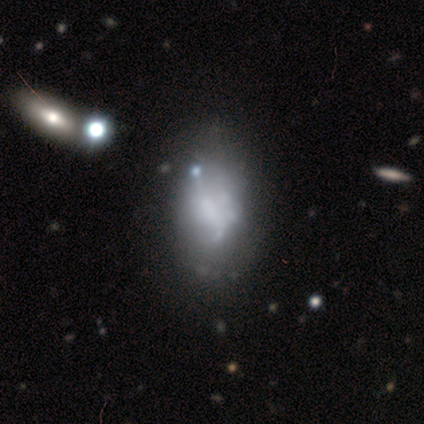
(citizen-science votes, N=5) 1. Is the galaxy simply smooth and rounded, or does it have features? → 40% featured or disk (tied), 40% star or artifact (tied), 20% smooth.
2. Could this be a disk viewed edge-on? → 100% no, 0% yes.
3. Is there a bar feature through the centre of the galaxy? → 100% no, 0% strong, 0% weak.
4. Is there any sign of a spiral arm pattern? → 100% no, 0% yes.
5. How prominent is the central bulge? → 100% none, 0% dominant, 0% large, 0% moderate, 0% small.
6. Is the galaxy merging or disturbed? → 33% none (tied), 33% major disturbance (tied), 33% merger (tied), 0% minor disturbance.